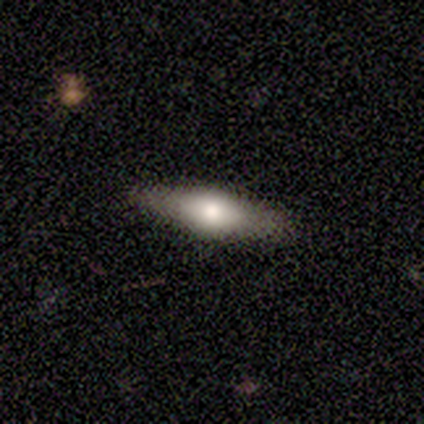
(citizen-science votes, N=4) Smooth or featured? 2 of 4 (50%, tied with featured or disk) said smooth. How rounded? 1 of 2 (50%, tied with cigar-shaped) said in between. Merging? 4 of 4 (100%) said none.